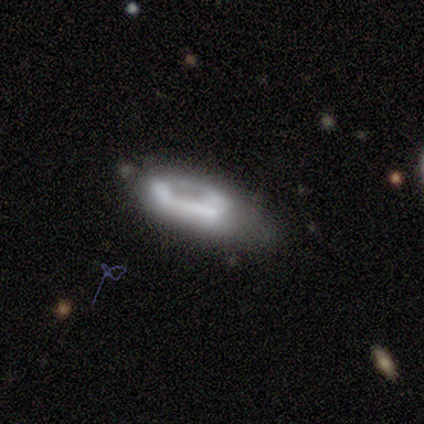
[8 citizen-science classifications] Smooth or featured: featured or disk — 62% (smooth — 25%)
Edge-on disk: no — 100%
Bar: no — 80% (weak — 20%)
Spiral arms: no — 100%
Bulge size: large — 60% (small — 20%)
Merging: major disturbance — 57% (minor disturbance — 29%)